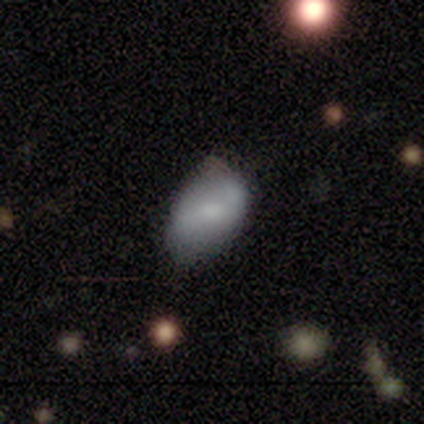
Overall: smooth (60%; featured or disk 40%). How rounded: in between (100%). Merging: none (40%, tied with minor disturbance).